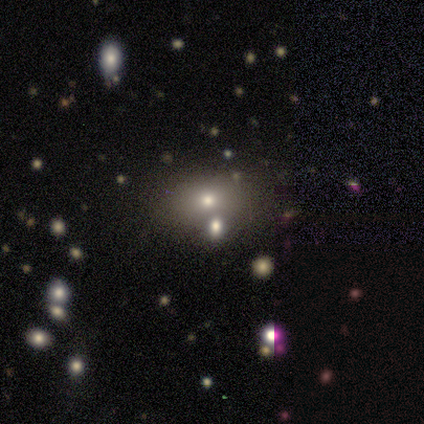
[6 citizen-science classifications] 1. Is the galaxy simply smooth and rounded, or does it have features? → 50% smooth, 33% featured or disk, 17% star or artifact.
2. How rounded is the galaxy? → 100% in between, 0% round, 0% cigar-shaped.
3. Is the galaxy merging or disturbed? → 40% none (tied), 40% minor disturbance (tied), 20% merger, 0% major disturbance.